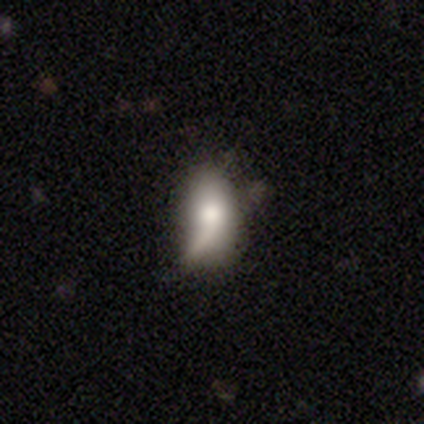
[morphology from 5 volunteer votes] A smooth galaxy with no disk features (80%) that is in between round and cigar-shaped (75%).

Vote fractions:
- Smooth or featured? smooth: 80% / featured or disk: 20% / star or artifact: 0%
- How rounded? in between: 75% / round: 25% / cigar-shaped: 0%
- Merging? major disturbance: 60% / minor disturbance: 20% / merger: 20% / none: 0%